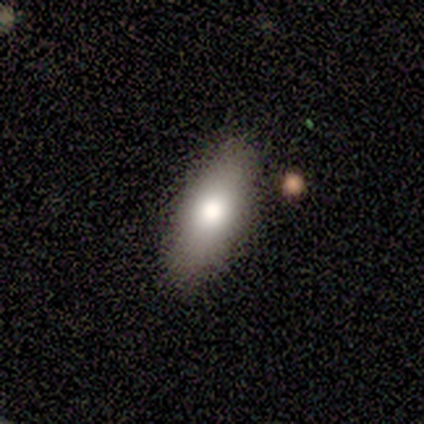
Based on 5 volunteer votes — Q: Smooth or featured?
A: smooth (80%); runner-up: featured or disk (20%)
Q: How rounded?
A: in between (100%)
Q: Merging?
A: none (100%)